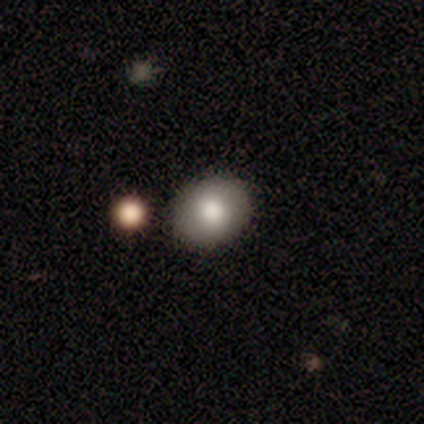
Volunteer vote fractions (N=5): Smooth or featured?
  - smooth: 80% *
  - star or artifact: 20%
  - featured or disk: 0%
How rounded?
  - round: 75% *
  - in between: 25%
  - cigar-shaped: 0%
Merging?
  - none: 50% *
  - minor disturbance: 25%
  - major disturbance: 25%
  - merger: 0%